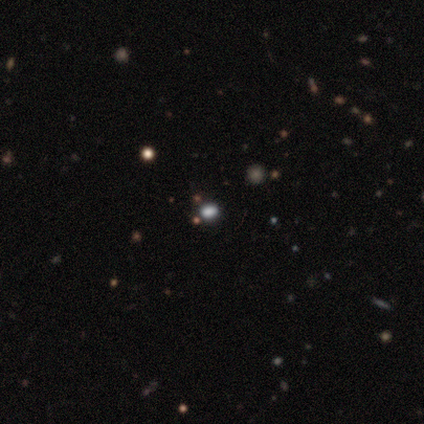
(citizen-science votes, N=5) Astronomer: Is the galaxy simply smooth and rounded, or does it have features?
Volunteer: smooth — 100%.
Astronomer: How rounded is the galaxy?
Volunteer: in between — 60% (runner-up: round, 40%).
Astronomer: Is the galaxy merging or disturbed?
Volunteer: none — 100%.